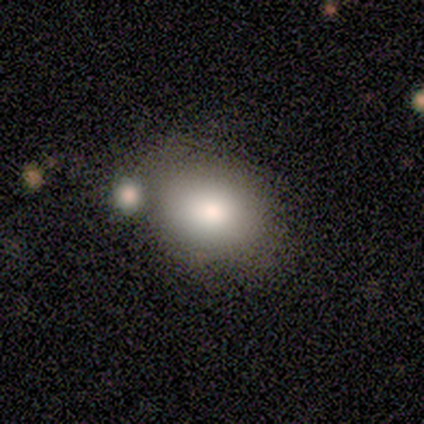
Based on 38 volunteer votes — Smooth or featured? smooth (76%)
How rounded? in between (79%)
Merging? none (51%)